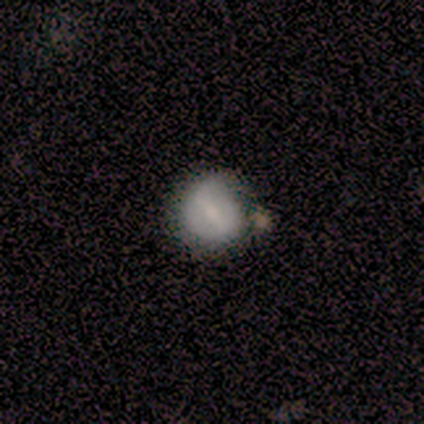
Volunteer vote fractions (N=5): smooth-or-featured: smooth: 60% | featured or disk: 20% | star or artifact: 20%
  how-rounded: in between: 67% | round: 33% | cigar-shaped: 0%
  merging: merger: 50% | none: 25% | major disturbance: 25% | minor disturbance: 0%